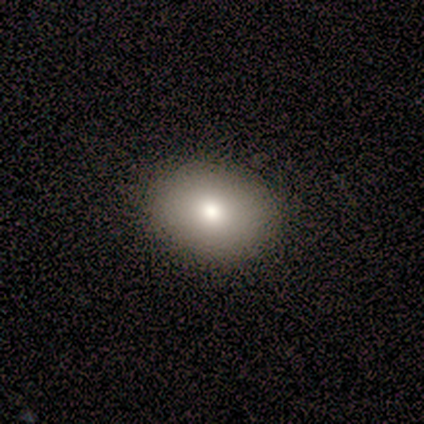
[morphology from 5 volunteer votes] Q: Smooth or featured?
A: smooth (100%)
Q: How rounded?
A: in between (80%); runner-up: round (20%)
Q: Merging?
A: none (80%); runner-up: minor disturbance (20%)